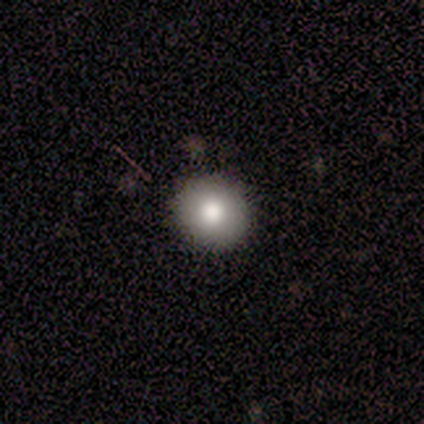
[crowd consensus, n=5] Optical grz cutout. It shows a smooth galaxy with no disk features (100%) that is round (80%). Merging: none (100%).